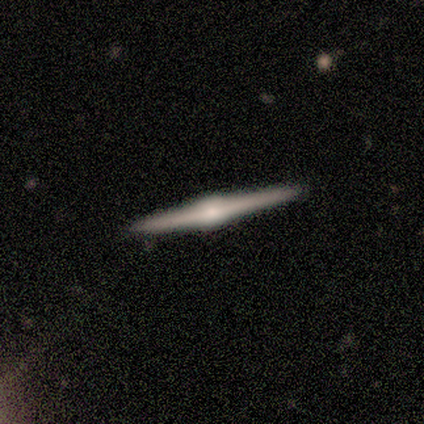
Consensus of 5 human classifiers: A featured or disk galaxy (100%) viewed edge-on (100%) with a rounded central bulge (60%).

Vote fractions:
- Smooth or featured? featured or disk: 100% / smooth: 0% / star or artifact: 0%
- Edge-on disk? yes: 100% / no: 0%
- Edge-on bulge? rounded: 60% / boxy: 40% / none: 0%
- Merging? none: 100% / minor disturbance: 0% / major disturbance: 0% / merger: 0%